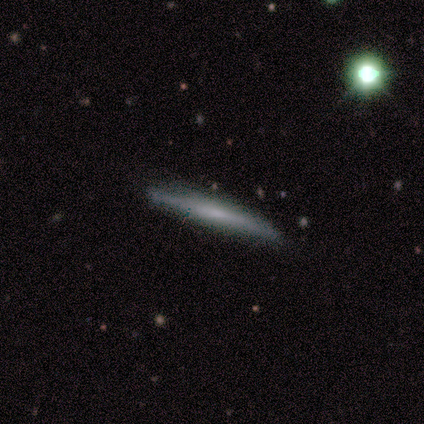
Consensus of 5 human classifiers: Smooth or featured: smooth — 60% (featured or disk — 40%)
How rounded: cigar-shaped — 100%
Merging: none — 60% (minor disturbance — 20%)